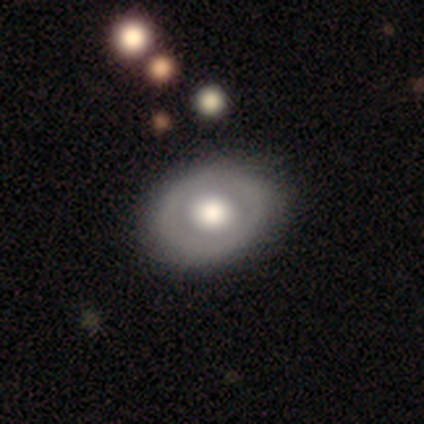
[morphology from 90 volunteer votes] smooth-or-featured: smooth: 52% | featured or disk: 41% | star or artifact: 7%
  how-rounded: in between: 68% | round: 30% | cigar-shaped: 2%
  merging: none: 77% | minor disturbance: 18% | major disturbance: 4% | merger: 1%